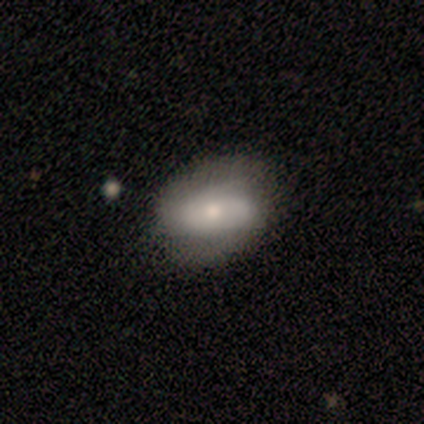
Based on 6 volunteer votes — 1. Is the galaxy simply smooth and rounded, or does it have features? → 50% smooth, 33% featured or disk, 17% star or artifact.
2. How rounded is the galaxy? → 100% in between, 0% round, 0% cigar-shaped.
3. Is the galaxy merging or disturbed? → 80% none, 20% minor disturbance, 0% major disturbance, 0% merger.